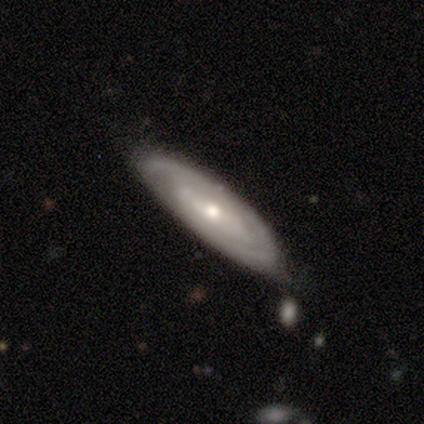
A featured or disk galaxy (77%) with no bar (47%), 2 (42%) tight (72%) spiral arms (78%) and a moderate central bulge (63%). Merging: none (71%).